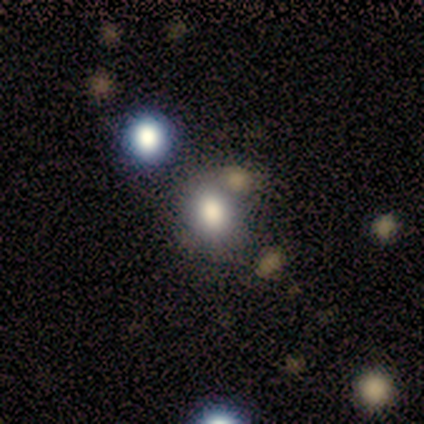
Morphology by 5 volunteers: A smooth galaxy with no disk features (80%) that is round (50%, tied with in between). Merging: none (50%).